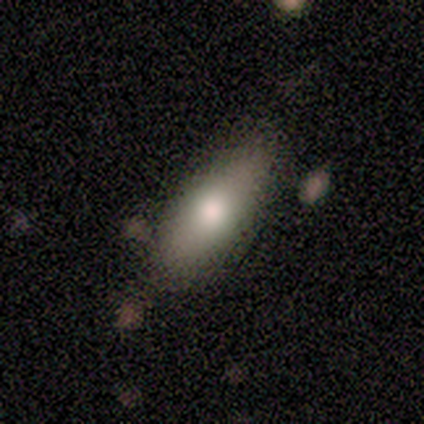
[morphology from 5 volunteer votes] Smooth or featured: smooth — 80% (star or artifact — 20%)
How rounded: in between — 100%
Merging: none — 75% (minor disturbance — 25%)